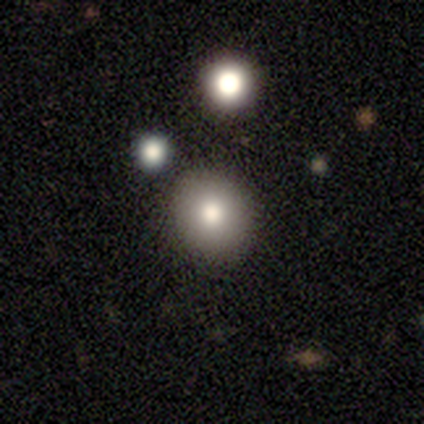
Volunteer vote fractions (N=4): Smooth or featured? smooth (75%)
How rounded? round (100%)
Merging? none (100%)